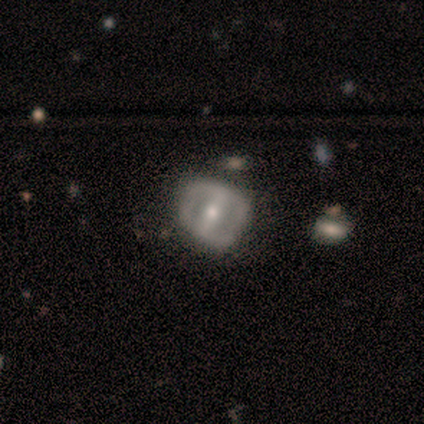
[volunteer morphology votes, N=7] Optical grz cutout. It shows a featured or disk galaxy (57%) with a strong bar (100%), tight (67%) spiral arms (75%) and a moderate central bulge (75%). Merging: minor disturbance (57%).